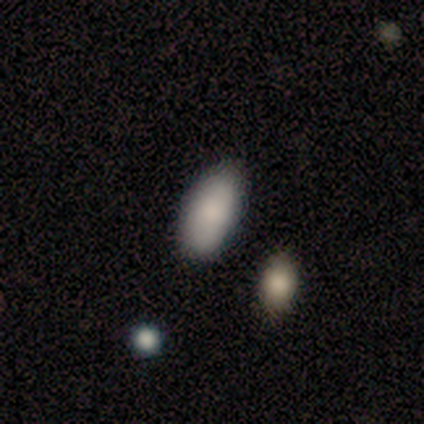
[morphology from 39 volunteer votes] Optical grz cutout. It shows a smooth galaxy with no disk features (87%) that is in between round and cigar-shaped (100%). Merging: none (83%).